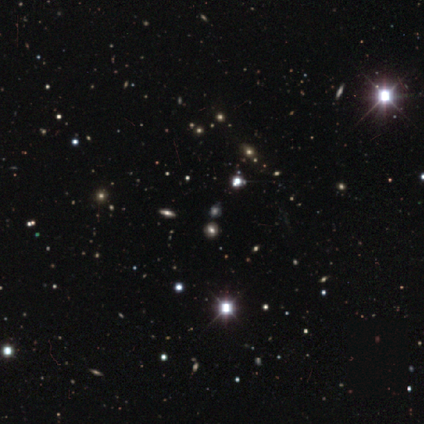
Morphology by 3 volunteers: Q: Smooth or featured?
A: star or artifact (67%); runner-up: smooth (33%)